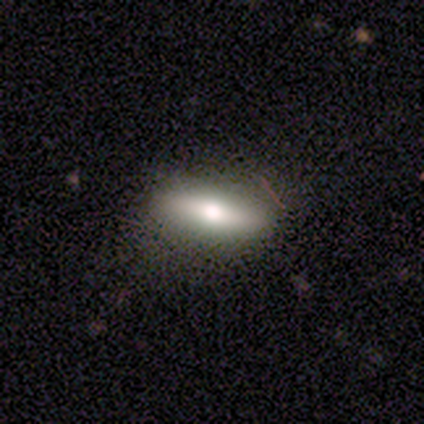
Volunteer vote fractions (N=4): Smooth or featured? 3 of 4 (75%) said smooth. How rounded? 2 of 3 (67%) said cigar-shaped. Merging? 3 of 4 (75%) said none.